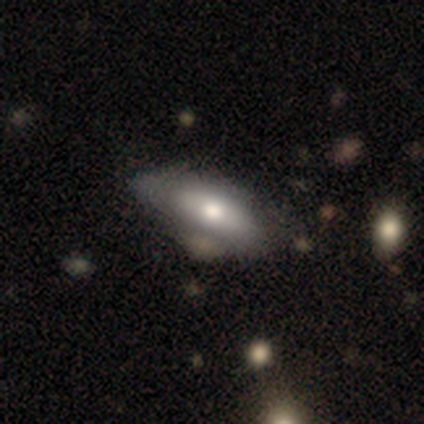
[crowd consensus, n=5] Smooth or featured? 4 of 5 (80%) said smooth. How rounded? 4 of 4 (100%) said in between. Merging? 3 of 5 (60%) said none.